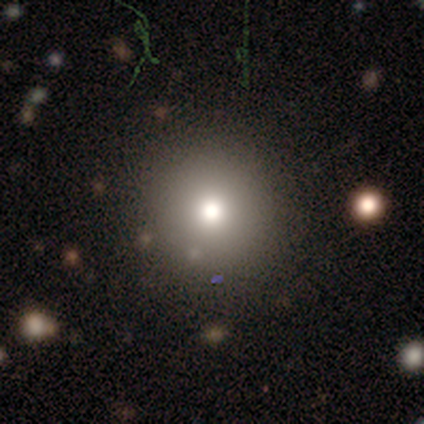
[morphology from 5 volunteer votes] Smooth or featured? 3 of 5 (60%) said smooth. How rounded? 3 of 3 (100%) said round. Merging? 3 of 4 (75%) said none.